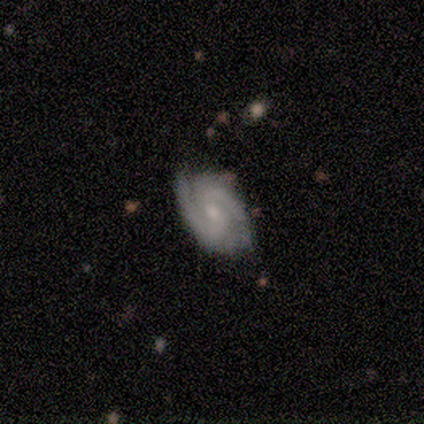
featured or disk 100%, smooth 0%, star or artifact 0%. Down the decision tree: edge-on disk — no (100%); bar — weak (40%, tied with no); spiral arms — yes (100%); spiral arm count — 2 (100%); spiral winding — tight (60%); bulge size — small (80%); merging — none (80%).